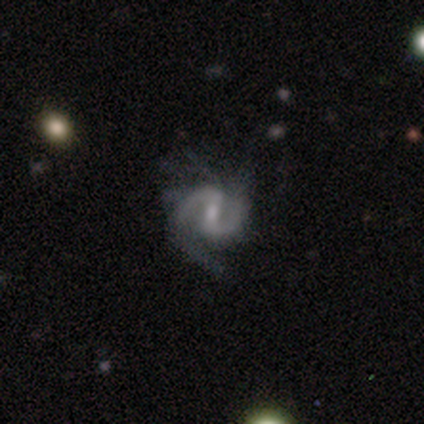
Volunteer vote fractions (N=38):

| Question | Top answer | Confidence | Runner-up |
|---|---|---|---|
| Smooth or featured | featured or disk | 95% | star or artifact (5%) |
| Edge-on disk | no | 100% | — |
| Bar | weak | 58% | strong (31%) |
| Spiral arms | yes | 94% | no (6%) |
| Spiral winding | medium | 53% | loose (29%) |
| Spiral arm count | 2 | 97% | can't tell (3%) |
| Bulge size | small | 50% | moderate (33%) |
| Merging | none | 58% | major disturbance (25%) |